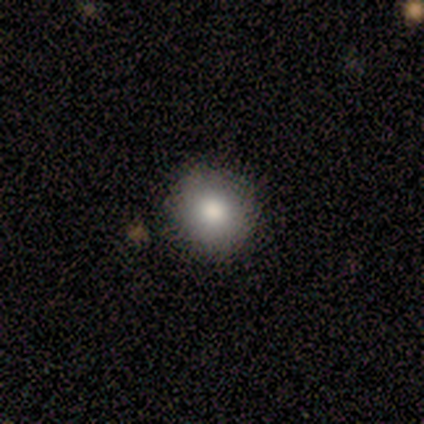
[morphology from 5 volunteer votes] Smooth or featured?
  - smooth: 100% *
  - featured or disk: 0%
  - star or artifact: 0%
How rounded?
  - round: 100% *
  - in between: 0%
  - cigar-shaped: 0%
Merging?
  - none: 60% *
  - minor disturbance: 40%
  - major disturbance: 0%
  - merger: 0%